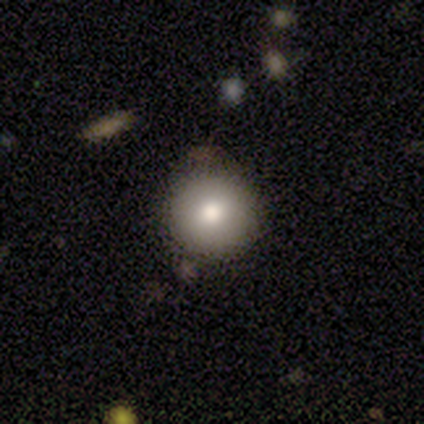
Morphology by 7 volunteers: Smooth or featured: smooth — 86% (star or artifact — 14%)
How rounded: round — 100%
Merging: none — 67% (minor disturbance — 33%)